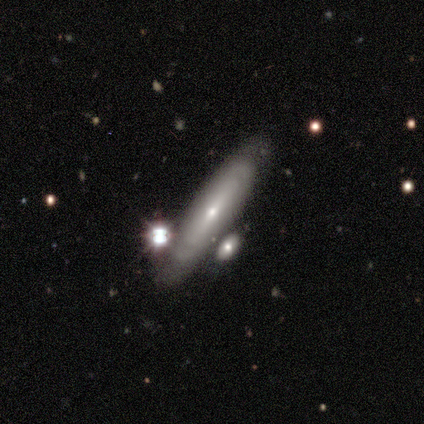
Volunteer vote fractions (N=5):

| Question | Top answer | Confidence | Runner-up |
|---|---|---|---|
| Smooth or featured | featured or disk | 60% | smooth (40%) |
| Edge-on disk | yes | 67% | no (33%) |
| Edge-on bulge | none | 50% | tied: rounded (50%) |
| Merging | none | 60% | minor disturbance (20%) |